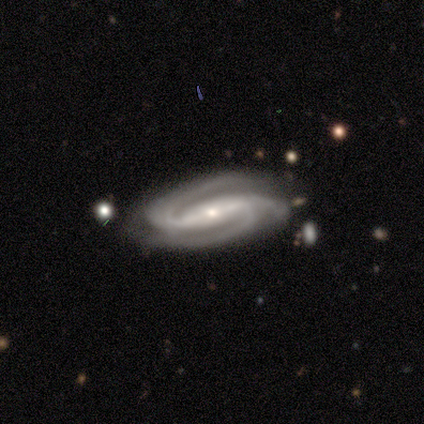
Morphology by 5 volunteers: type=featured or disk (100%); edge-on=no (100%); bar=strong (80%); spiral arms=yes (100%); winding=medium (80%); arm count=2 (100%); bulge=small (60%); merging=none (80%).